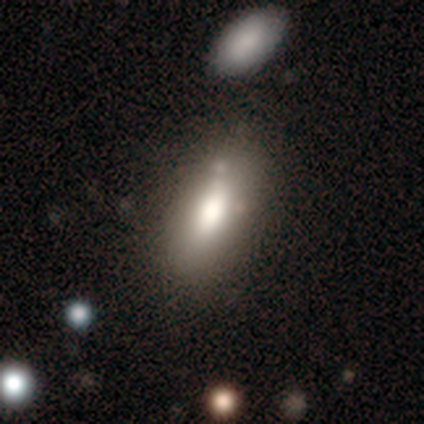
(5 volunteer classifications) Q: Smooth or featured?
A: smooth (60%); runner-up: featured or disk (40%)
Q: How rounded?
A: in between (67%); runner-up: cigar-shaped (33%)
Q: Merging?
A: none (80%); runner-up: major disturbance (20%)